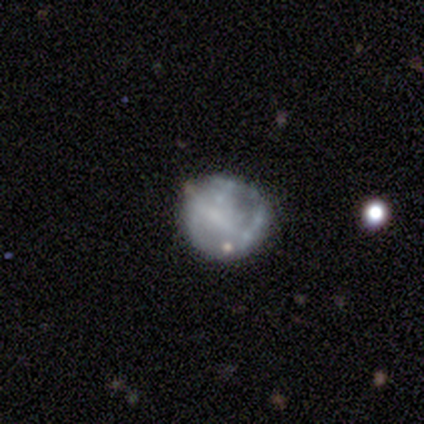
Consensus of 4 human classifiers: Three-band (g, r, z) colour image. It shows a featured or disk galaxy (75%) with a strong bar (33%, tied with weak and no), 1 (50%, tied with 2) tight (50%, tied with medium) spiral arms (67%) and no central bulge (67%). Merging: none (100%).